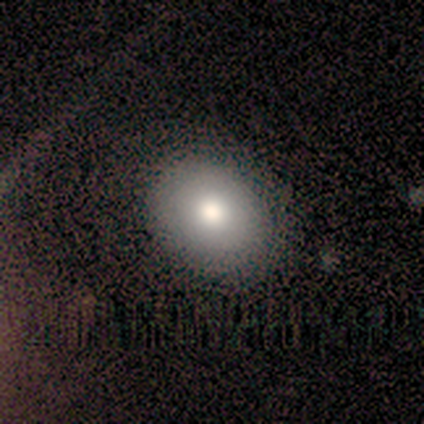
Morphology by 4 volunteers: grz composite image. It shows a smooth galaxy with no disk features (100%) that is round (75%). Merging: none (75%).